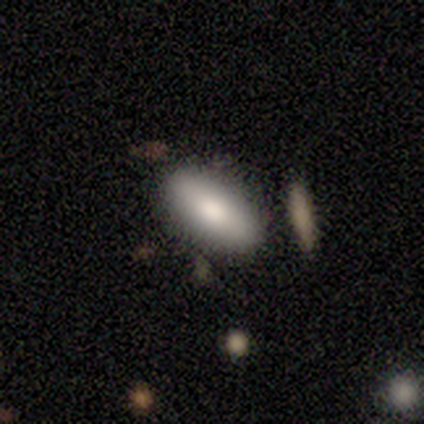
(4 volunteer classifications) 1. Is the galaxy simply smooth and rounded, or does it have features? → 100% smooth, 0% featured or disk, 0% star or artifact.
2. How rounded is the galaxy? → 75% in between, 25% cigar-shaped, 0% round.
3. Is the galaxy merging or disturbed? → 50% none (tied), 50% minor disturbance (tied), 0% major disturbance, 0% merger.